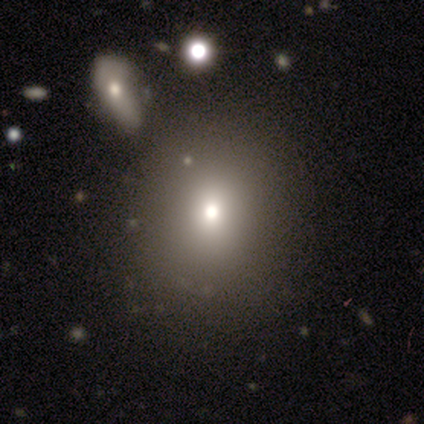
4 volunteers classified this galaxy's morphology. A smooth galaxy with no disk features (50%) that is round (100%).

Vote fractions:
- Smooth or featured? smooth: 50% / featured or disk: 25% / star or artifact: 25%
- How rounded? round: 100% / in between: 0% / cigar-shaped: 0%
- Merging? none: 100% / minor disturbance: 0% / major disturbance: 0% / merger: 0%